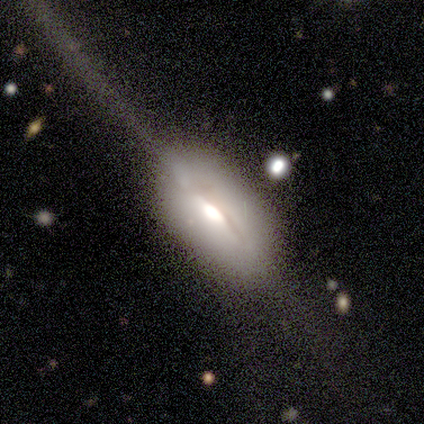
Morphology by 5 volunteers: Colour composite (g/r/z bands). It shows a smooth galaxy with no disk features (60%) that is in between round and cigar-shaped (67%). Merging: major disturbance (60%).